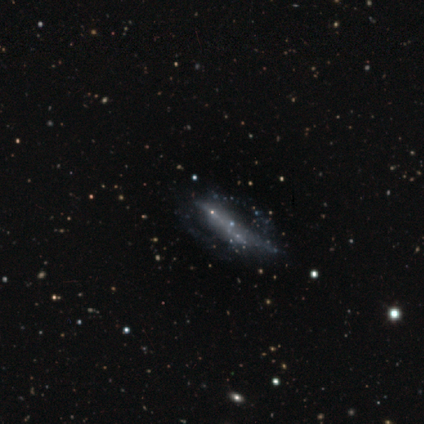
Smooth or featured: featured or disk — 40% (tied with star or artifact — 40%)
Edge-on disk: yes — 50% (tied with no — 50%)
Edge-on bulge: none — 100%
Merging: none — 33% (tied with major disturbance — 33%; merger — 33%)